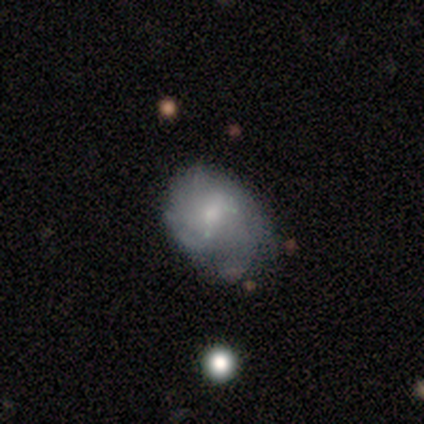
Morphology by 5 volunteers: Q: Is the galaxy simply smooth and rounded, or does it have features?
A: featured or disk — 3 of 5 (60%).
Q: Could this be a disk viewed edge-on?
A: no — 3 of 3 (100%).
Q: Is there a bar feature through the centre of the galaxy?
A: no — 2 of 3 (67%).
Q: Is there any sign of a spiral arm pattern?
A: yes — 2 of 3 (67%).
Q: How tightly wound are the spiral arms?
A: medium — 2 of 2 (100%).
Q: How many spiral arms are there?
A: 3 — 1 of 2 (50%, tied with can't tell).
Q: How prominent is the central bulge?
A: small — 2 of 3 (67%).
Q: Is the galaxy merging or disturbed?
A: none — 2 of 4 (50%).